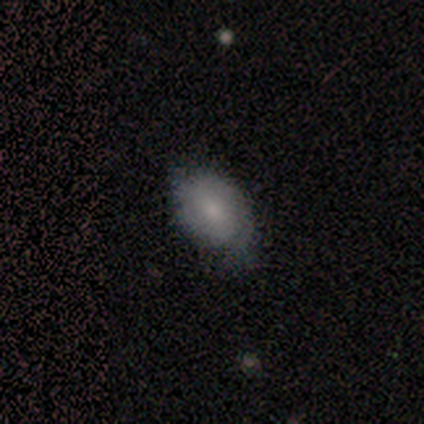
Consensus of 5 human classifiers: Overall: smooth (60%; featured or disk 40%). How rounded: in between (67%; round 33%). Merging: minor disturbance (100%).